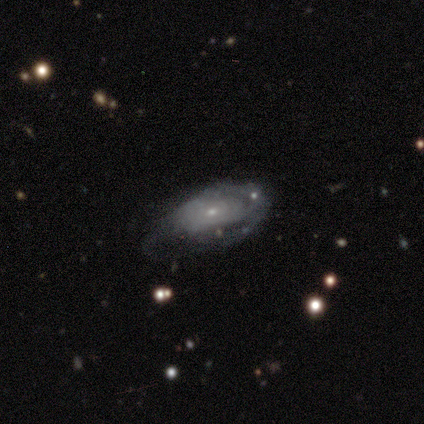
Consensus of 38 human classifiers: Overall: featured or disk (66%; smooth 26%). Edge-on disk: no (84%). Bar: no (86%). Spiral arms: yes (67%; no 33%). Spiral arm count: can't tell (79%). Spiral winding: tight (57%; medium 29%). Bulge size: small (67%; moderate 29%). Merging: none (40%; major disturbance 29%).